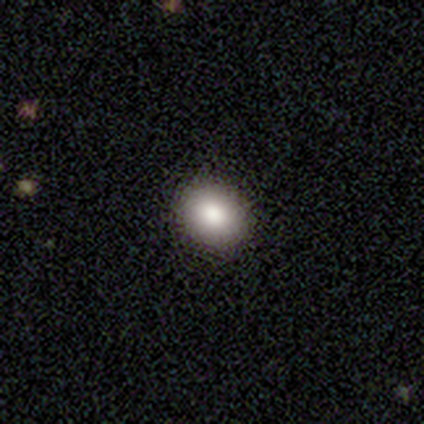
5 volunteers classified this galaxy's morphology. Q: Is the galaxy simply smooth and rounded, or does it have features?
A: smooth — 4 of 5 (80%).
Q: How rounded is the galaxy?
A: round — 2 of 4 (50%, tied with in between).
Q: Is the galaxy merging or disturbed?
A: none — 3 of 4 (75%).